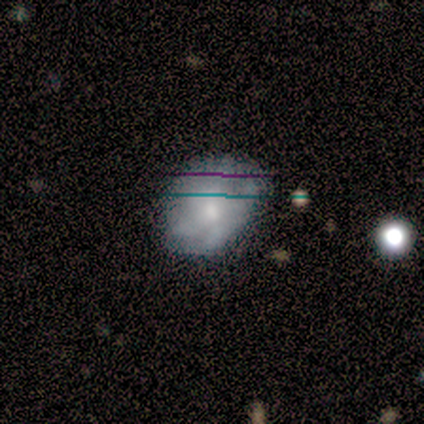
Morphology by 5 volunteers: Smooth or featured: featured or disk — 60% (smooth — 20%)
Edge-on disk: no — 67% (yes — 33%)
Bar: strong — 50% (tied with no — 50%)
Spiral arms: no — 100%
Bulge size: moderate — 100%
Merging: none — 100%